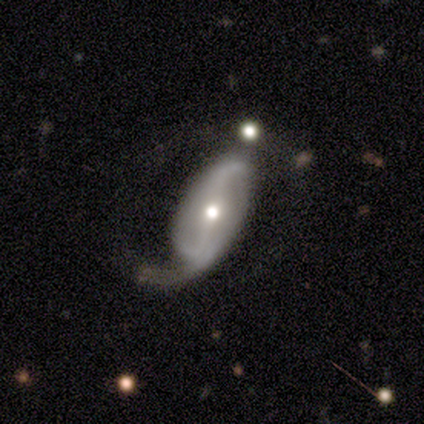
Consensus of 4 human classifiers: A smooth galaxy with no disk features (50%, tied with featured or disk) that is in between round and cigar-shaped (100%).

Vote fractions:
- Smooth or featured? smooth: 50% (tied) / featured or disk: 50% (tied) / star or artifact: 0%
- How rounded? in between: 100% / round: 0% / cigar-shaped: 0%
- Merging? major disturbance: 75% / minor disturbance: 25% / none: 0% / merger: 0%